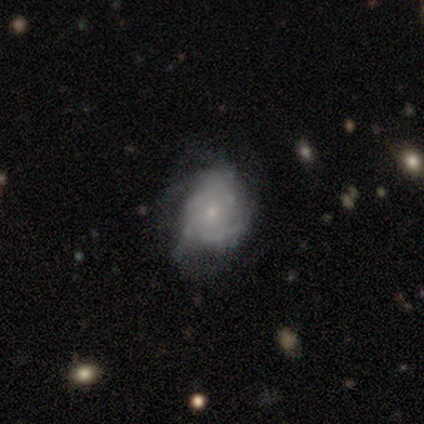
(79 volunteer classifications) Smooth or featured?
  - featured or disk: 73% *
  - smooth: 22%
  - star or artifact: 5%
Edge-on disk?
  - no: 100% *
  - yes: 0%
Bar?
  - no: 83% *
  - weak: 14%
  - strong: 3%
Spiral arms?
  - yes: 84% *
  - no: 16%
Spiral winding?
  - tight: 53% *
  - medium: 29%
  - loose: 18%
Spiral arm count?
  - can't tell: 61% *
  - 3: 12%
  - 4: 12%
  - 2: 10%
  - 1: 2%
  - more than 4: 2%
Bulge size?
  - small: 84% *
  - moderate: 10%
  - none: 3%
  - large: 2%
  - dominant: 0%
Merging?
  - none: 25% *
  - minor disturbance: 19%
  - major disturbance: 5%
  - merger: 3%